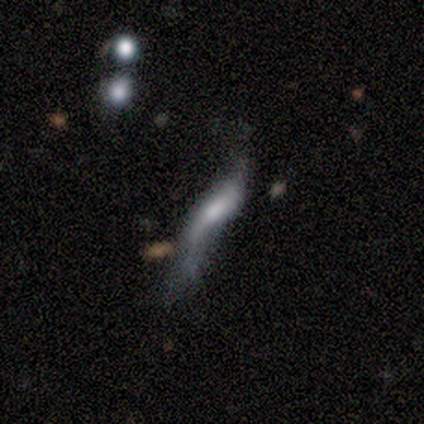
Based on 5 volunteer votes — Overall: featured or disk (60%; smooth 20%). Edge-on disk: no (67%; yes 33%). Bar: strong (50%, tied with no). Spiral arms: yes (50%, tied with no). Spiral arm count: 2 (100%). Spiral winding: loose (100%). Bulge size: large (50%, tied with none). Merging: major disturbance (75%).